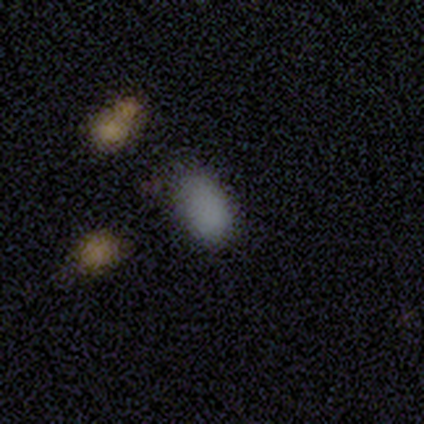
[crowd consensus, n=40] smooth_or_featured: smooth (p=0.78) [alt: star or artifact p=0.17]
how_rounded: in between (p=0.84) [alt: round p=0.10]
merging: none (p=0.48) [alt: minor disturbance p=0.27]